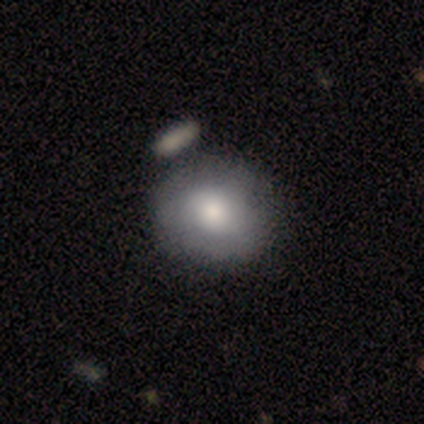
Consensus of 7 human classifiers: This is clearly a smooth galaxy (100%). How rounded: clearly round (100%). Merging: likely none (71%).